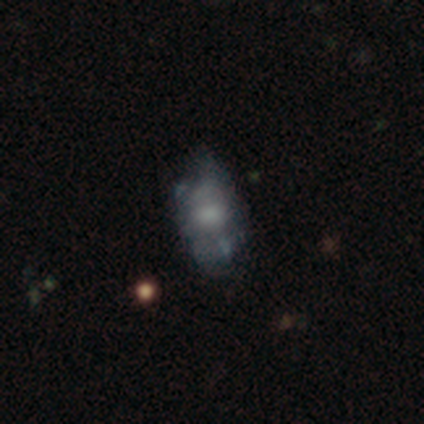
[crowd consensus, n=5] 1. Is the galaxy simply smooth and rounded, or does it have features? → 80% featured or disk, 20% smooth, 0% star or artifact.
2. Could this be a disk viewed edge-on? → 100% no, 0% yes.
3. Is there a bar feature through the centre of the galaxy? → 75% no, 25% weak, 0% strong.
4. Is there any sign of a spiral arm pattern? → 100% no, 0% yes.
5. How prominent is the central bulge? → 75% moderate, 25% small, 0% dominant, 0% large, 0% none.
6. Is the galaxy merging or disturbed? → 80% minor disturbance, 20% merger, 0% none, 0% major disturbance.